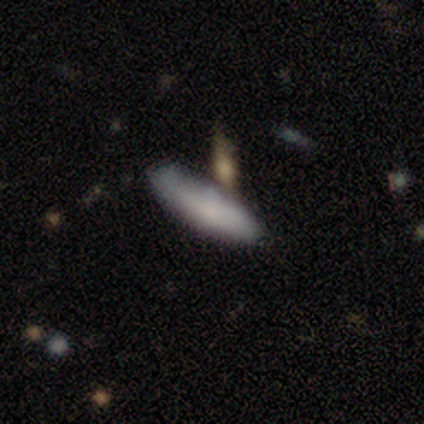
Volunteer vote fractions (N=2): A smooth galaxy with no disk features (100%) that is in between round and cigar-shaped (50%, tied with cigar-shaped). Merging: none (50%, tied with minor disturbance).